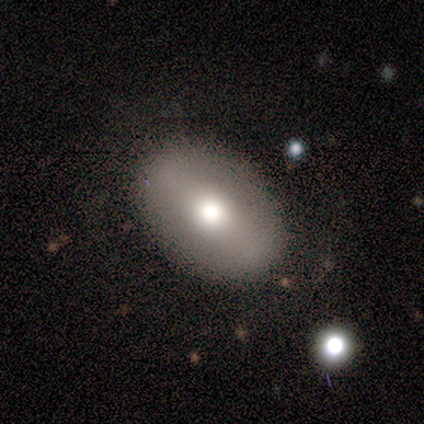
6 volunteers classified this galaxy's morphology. A smooth galaxy with no disk features (67%) that is in between round and cigar-shaped (75%).

Vote fractions:
- Smooth or featured? smooth: 67% / featured or disk: 33% / star or artifact: 0%
- How rounded? in between: 75% / round: 25% / cigar-shaped: 0%
- Merging? none: 100% / minor disturbance: 0% / major disturbance: 0% / merger: 0%